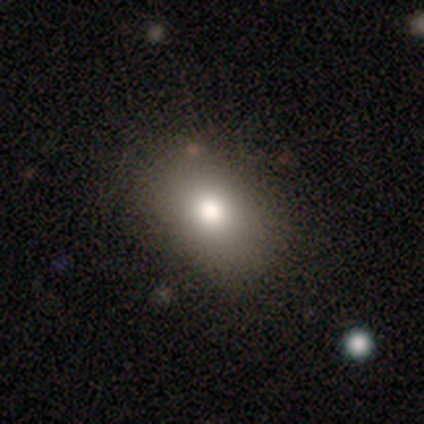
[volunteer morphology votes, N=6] smooth 100%, featured or disk 0%, star or artifact 0%. Down the decision tree: how rounded — in between (83%); merging — none (83%).